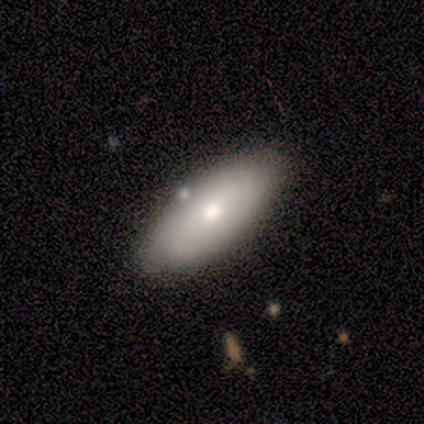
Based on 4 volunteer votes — Morphology: type=smooth (50%, tied with featured or disk); roundness=in between (100%); merging=none (75%).